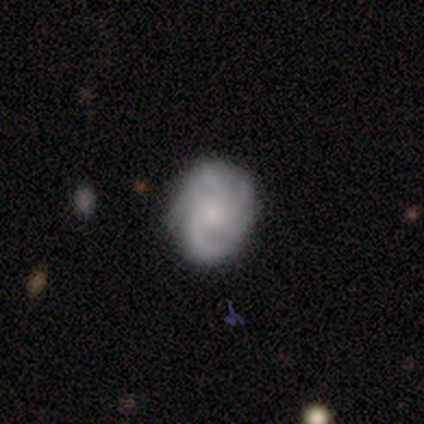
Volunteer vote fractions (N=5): Smooth or featured: featured or disk — 80% (smooth — 20%)
Edge-on disk: no — 100%
Bar: no — 75% (weak — 25%)
Spiral arms: yes — 100%
Spiral winding: tight — 50% (medium — 25%)
Spiral arm count: can't tell — 50% (3 — 25%)
Bulge size: small — 50% (moderate — 25%)
Merging: none — 100%